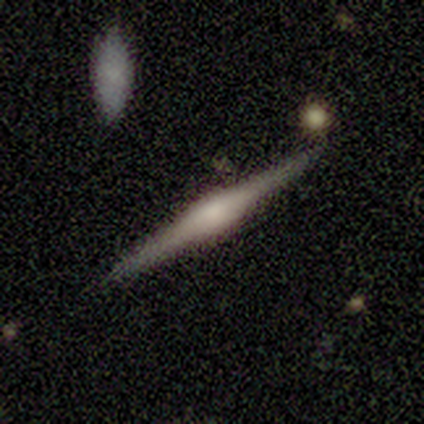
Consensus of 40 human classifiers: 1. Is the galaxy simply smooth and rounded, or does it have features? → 80% featured or disk, 12% smooth, 8% star or artifact.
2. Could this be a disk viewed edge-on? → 100% yes, 0% no.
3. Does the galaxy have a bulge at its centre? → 66% rounded, 34% boxy, 0% none.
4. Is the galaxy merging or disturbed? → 95% none, 3% minor disturbance, 3% merger, 0% major disturbance.